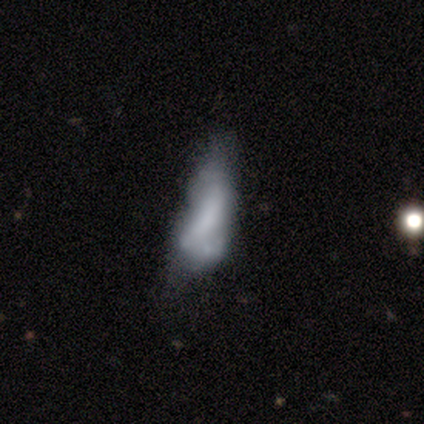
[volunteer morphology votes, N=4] smooth 50% (tied), featured or disk 50% (tied), star or artifact 0%. Down the decision tree: how rounded — in between (50%, tied with cigar-shaped); merging — minor disturbance (50%).